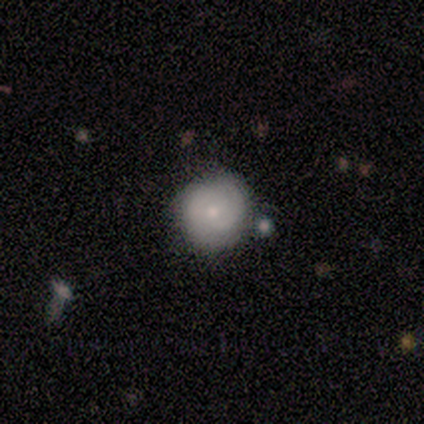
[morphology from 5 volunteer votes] Volunteers were most divided on "smooth or featured": smooth: 80%, featured or disk: 20%, star or artifact: 0%. More confident: how rounded — round (100%); merging — none (100%).